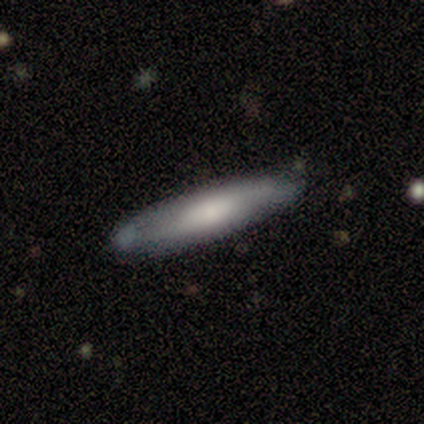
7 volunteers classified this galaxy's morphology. Overall: smooth (71%). How rounded: cigar-shaped (80%). Merging: none (100%).